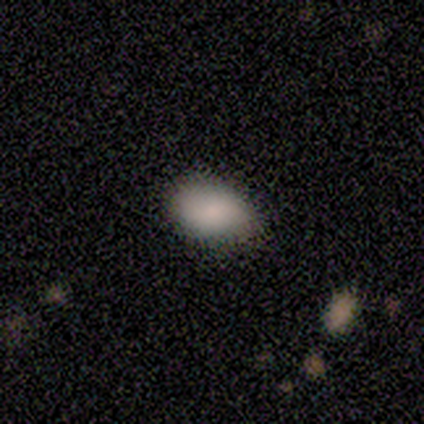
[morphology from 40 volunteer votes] Smooth or featured? smooth (88%)
How rounded? in between (89%)
Merging? none (63%)